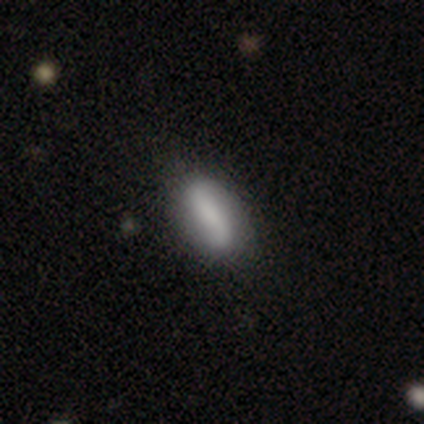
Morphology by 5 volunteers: smooth 60%, featured or disk 40%, star or artifact 0%. Down the decision tree: how rounded — in between (67%); merging — none (80%).